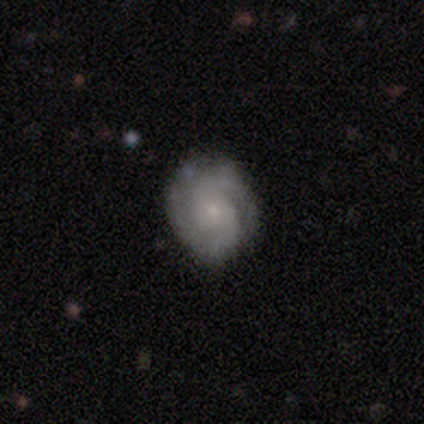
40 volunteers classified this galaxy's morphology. Volunteers were most divided on "bulge size": small: 72%, moderate: 22%, none: 6%, dominant: 0%, large: 0%. More confident: edge-on disk — no (97%); spiral arms — yes (91%); spiral arm count — 2 (83%); smooth or featured — featured or disk (82%); merging — none (80%); bar — no (78%); spiral winding — tight (76%).